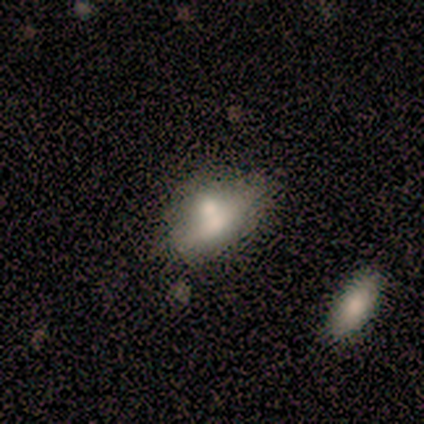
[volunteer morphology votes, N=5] type=smooth (80%); roundness=in between (50%, tied with cigar-shaped); merging=merger (40%).